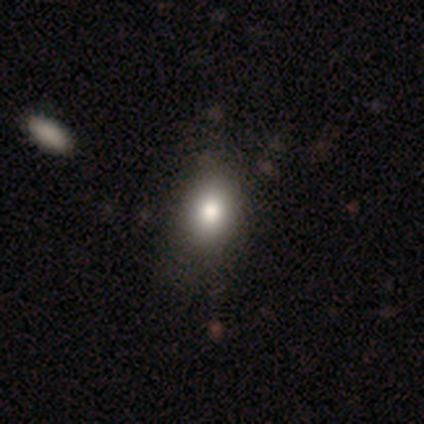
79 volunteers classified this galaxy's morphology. type=smooth (82%); roundness=in between (62%); merging=none (36%).